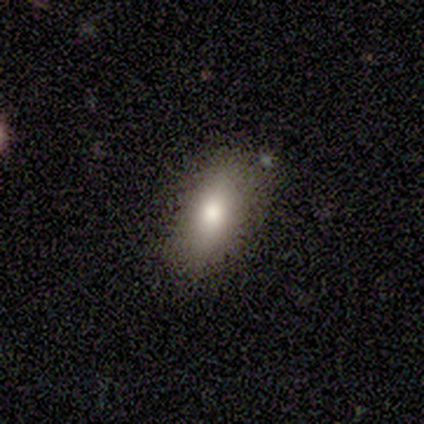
A smooth galaxy with no disk features (70%) that is in between round and cigar-shaped (100%). Merging: none (70%).